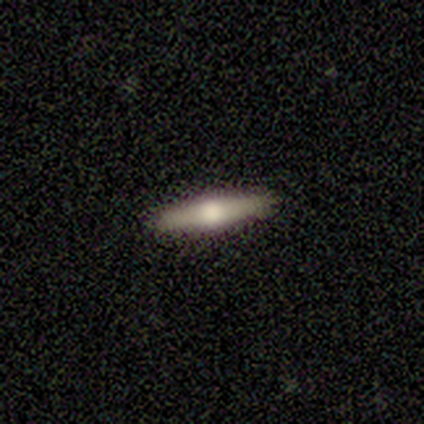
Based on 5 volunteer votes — Smooth or featured: featured or disk — 100%
Edge-on disk: yes — 100%
Edge-on bulge: rounded — 100%
Merging: none — 80% (minor disturbance — 20%)